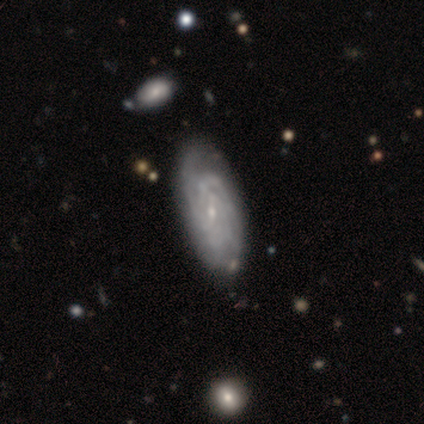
featured or disk 50%, smooth 33%, star or artifact 17%. Down the decision tree: edge-on disk — no (100%); bar — strong (67%); spiral arms — yes (100%); spiral arm count — 3 (67%); spiral winding — tight (100%); bulge size — small (100%); merging — none (60%).